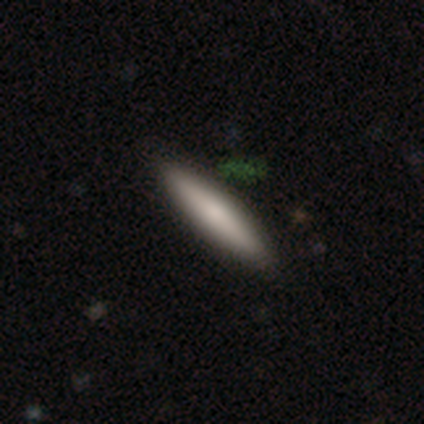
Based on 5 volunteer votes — Smooth or featured: featured or disk — 60% (smooth — 40%)
Edge-on disk: yes — 100%
Edge-on bulge: rounded — 100%
Merging: none — 80% (merger — 20%)